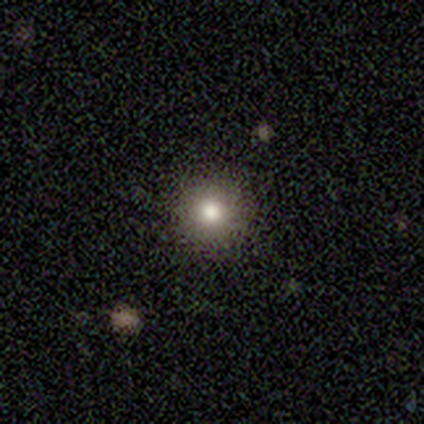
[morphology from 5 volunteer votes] Volunteers were most divided on "smooth or featured": smooth: 80%, star or artifact: 20%, featured or disk: 0%. More confident: how rounded — round (100%); merging — none (100%).